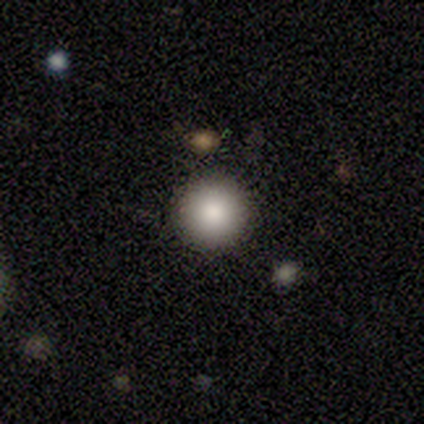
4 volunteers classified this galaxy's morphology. This appears to be a smooth galaxy with no disk features (75%) that is round (100%). Merging: none (100%).